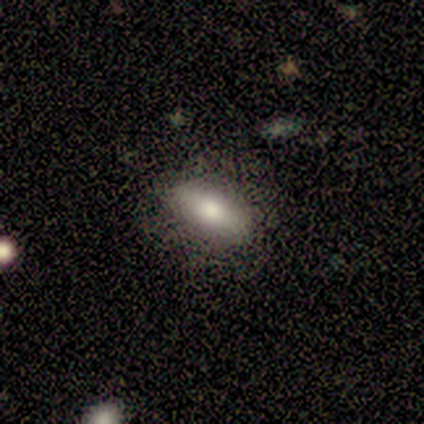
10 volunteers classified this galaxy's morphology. smooth_or_featured: smooth (p=0.70) [alt: featured or disk p=0.20]
how_rounded: in between (p=0.57) [alt: cigar-shaped p=0.43]
merging: none (p=0.78) [alt: minor disturbance p=0.22]